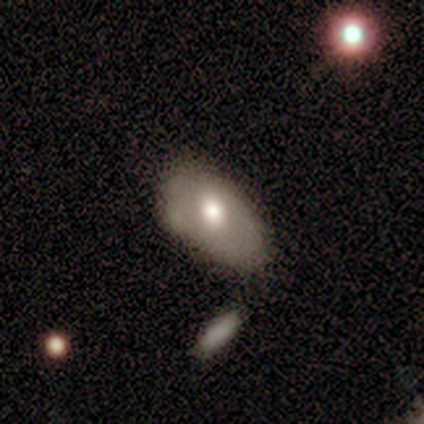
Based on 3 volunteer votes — Smooth or featured? 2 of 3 (67%) said featured or disk. Edge-on disk? 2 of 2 (100%) said no. Bar? 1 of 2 (50%, tied with no) said weak. Spiral arms? 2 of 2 (100%) said no. Bulge size? 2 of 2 (100%) said moderate. Merging? 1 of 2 (50%, tied with minor disturbance) said none.